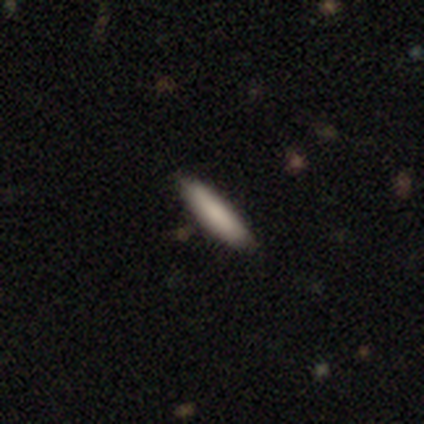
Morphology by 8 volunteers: smooth_or_featured: smooth (p=1.00)
how_rounded: cigar-shaped (p=0.75) [alt: in between p=0.25]
merging: none (p=1.00)